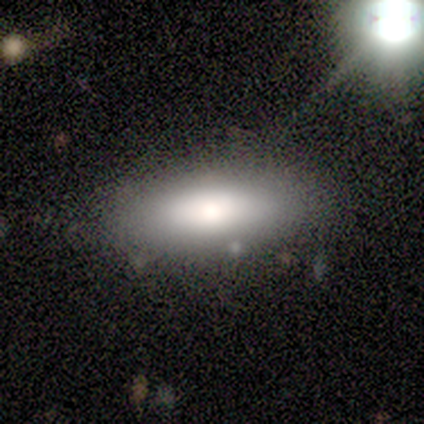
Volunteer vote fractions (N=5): smooth-or-featured: smooth: 60% | featured or disk: 20% | star or artifact: 20%
  how-rounded: in between: 67% | cigar-shaped: 33% | round: 0%
  merging: minor disturbance: 50% | none: 25% | major disturbance: 25% | merger: 0%